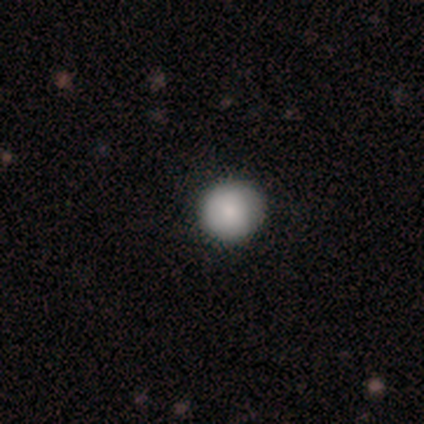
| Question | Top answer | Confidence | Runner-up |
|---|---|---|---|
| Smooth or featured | smooth | 100% | — |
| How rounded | round | 100% | — |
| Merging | none | 80% | minor disturbance (20%) |